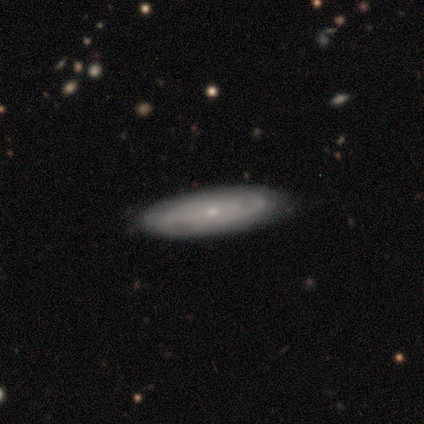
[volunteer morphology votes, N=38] A featured or disk galaxy (84%) with no bar (85%), tight (64%) spiral arms (81%) and a small central bulge (93%). Merging: none (89%).